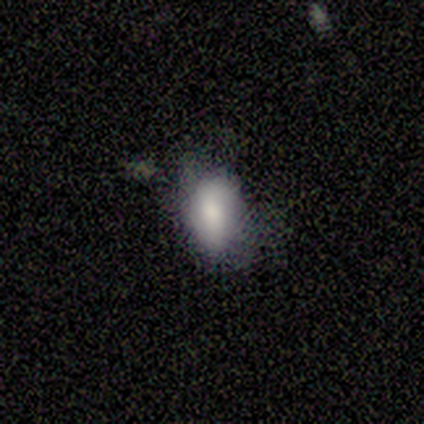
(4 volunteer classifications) This appears to be a smooth galaxy with no disk features (75%) that is in between round and cigar-shaped (100%). Merging: none (50%, tied with minor disturbance).